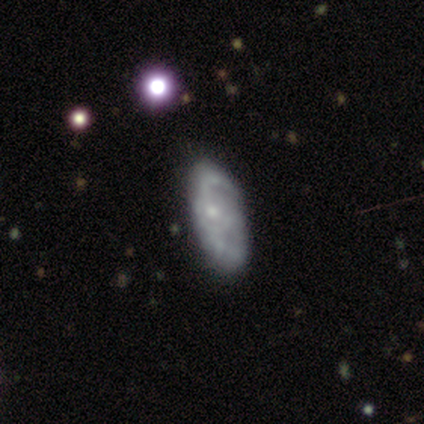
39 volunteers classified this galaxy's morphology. Smooth or featured? featured or disk (79%)
Edge-on disk? no (94%)
Bar? no (83%)
Spiral arms? yes (59%)
Spiral winding? tight (35%, tied with medium)
Spiral arm count? can't tell (53%)
Bulge size? small (62%)
Merging? none (36%)